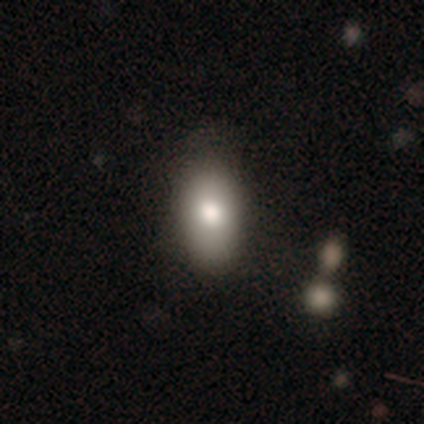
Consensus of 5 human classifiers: smooth-or-featured: smooth: 80% | featured or disk: 20% | star or artifact: 0%
  how-rounded: in between: 100% | round: 0% | cigar-shaped: 0%
  merging: none: 100% | minor disturbance: 0% | major disturbance: 0% | merger: 0%